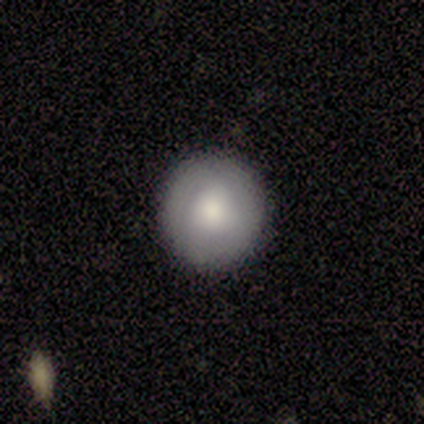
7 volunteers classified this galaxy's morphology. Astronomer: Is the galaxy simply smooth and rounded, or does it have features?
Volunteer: smooth — 86%.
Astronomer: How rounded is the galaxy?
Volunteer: round — 100%.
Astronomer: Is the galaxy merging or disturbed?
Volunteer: none — 86%.